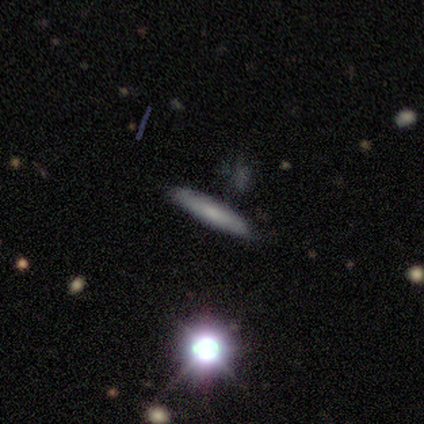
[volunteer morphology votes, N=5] This is likely a smooth galaxy (60%). How rounded: clearly cigar-shaped (100%). Merging: possibly minor disturbance (50%).